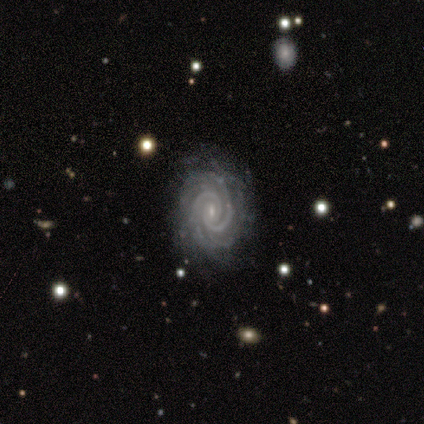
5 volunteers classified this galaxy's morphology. Smooth or featured? featured or disk (80%)
Edge-on disk? no (100%)
Bar? weak (50%, tied with no)
Spiral arms? yes (100%)
Spiral winding? tight (75%)
Spiral arm count? 3 (50%)
Bulge size? small (100%)
Merging? none (75%)